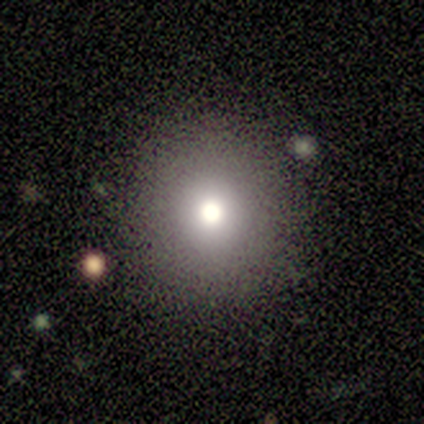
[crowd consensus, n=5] A smooth galaxy with no disk features (60%) that is round (100%).

Vote fractions:
- Smooth or featured? smooth: 60% / star or artifact: 40% / featured or disk: 0%
- How rounded? round: 100% / in between: 0% / cigar-shaped: 0%
- Merging? none: 67% / minor disturbance: 33% / major disturbance: 0% / merger: 0%